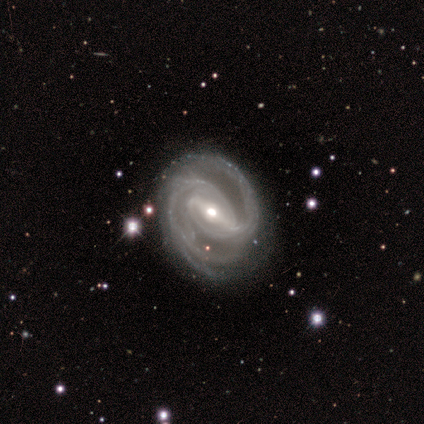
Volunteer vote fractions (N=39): smooth-or-featured: featured or disk: 100% | smooth: 0% | star or artifact: 0%
  disk-edge-on: no: 95% | yes: 5%
    bar: strong: 70% | weak: 27% | no: 3%
    has-spiral-arms: yes: 97% | no: 3%
      spiral-winding: medium: 53% | tight: 39% | loose: 8%
      spiral-arm-count: 2: 50% | 3: 36% | can't tell: 8% | 4: 3% | more than 4: 3% | 1: 0%
    bulge-size: moderate: 54% | small: 41% | large: 3% | none: 3% | dominant: 0%
  merging: none: 77% | minor disturbance: 21% | major disturbance: 3% | merger: 0%